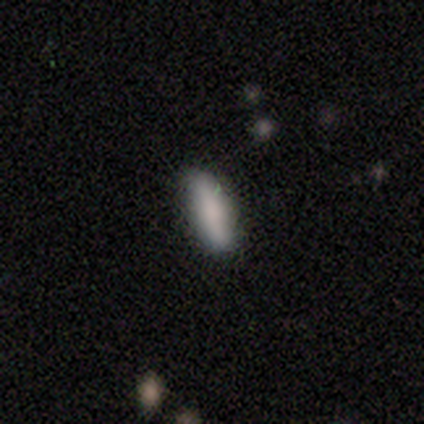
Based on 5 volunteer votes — Morphology: type=smooth (100%); roundness=in between (60%); merging=none (80%).